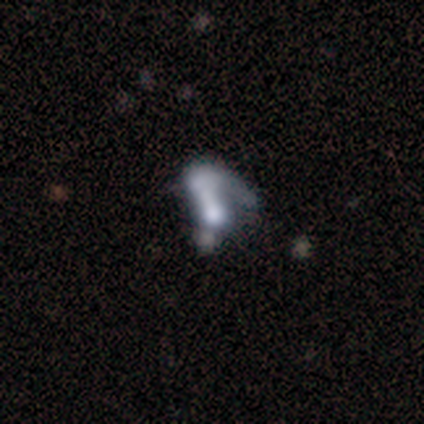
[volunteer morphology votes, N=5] Smooth or featured? 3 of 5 (60%) said star or artifact.